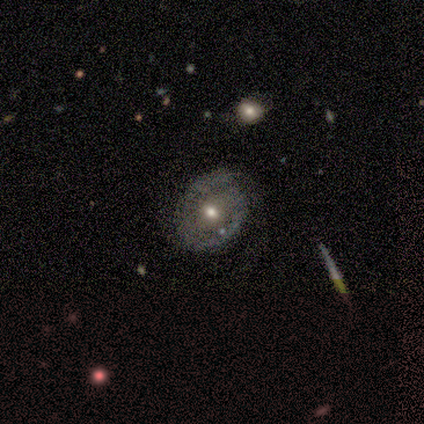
Volunteers were most divided on "spiral arms" (2-way tie): yes: 50%, no: 50%. More confident: edge-on disk — no (100%); spiral arm count — 2 (100%); merging — none (90%); bar — no (67%); spiral winding — medium (67%); bulge size — moderate (67%); smooth or featured — featured or disk (60%).